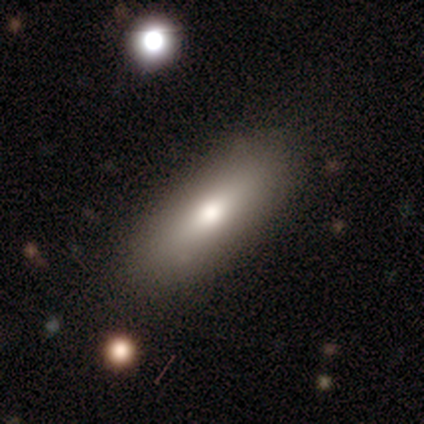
Volunteers were most divided on "smooth or featured": smooth: 75%, featured or disk: 25%, star or artifact: 0%. More confident: how rounded — in between (100%); merging — none (100%).